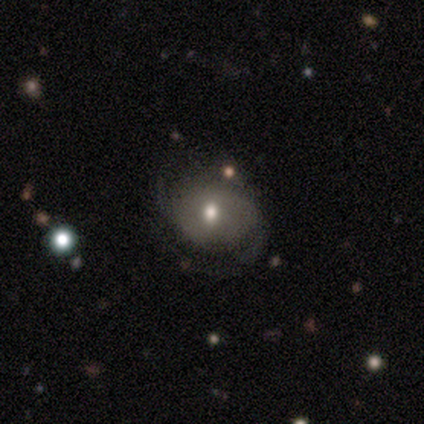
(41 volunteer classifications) smooth-or-featured: featured or disk: 71% | smooth: 22% | star or artifact: 7%
  disk-edge-on: no: 93% | yes: 7%
    bar: no: 85% | weak: 15% | strong: 0%
    has-spiral-arms: yes: 81% | no: 19%
      spiral-winding: loose: 45% | medium: 32% | tight: 23%
      spiral-arm-count: 2: 45% | can't tell: 32% | 3: 9% | 4: 9% | more than 4: 5% | 1: 0%
    bulge-size: moderate: 59% | small: 33% | large: 7% | dominant: 0% | none: 0%
  merging: none: 63% | minor disturbance: 26% | major disturbance: 11% | merger: 0%